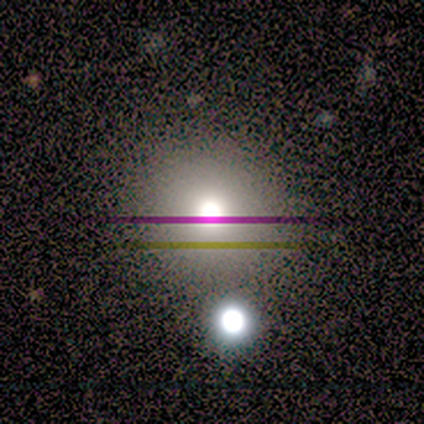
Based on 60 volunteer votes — This appears to be a smooth galaxy with no disk features (60%) that is round (94%). Merging: none (76%).